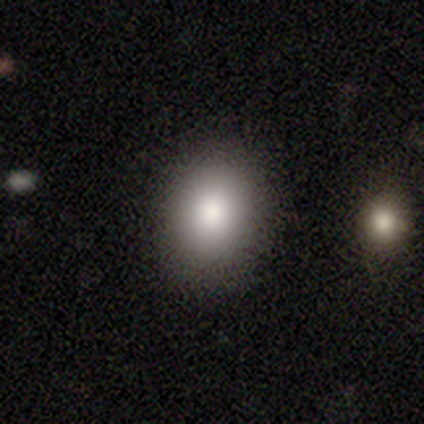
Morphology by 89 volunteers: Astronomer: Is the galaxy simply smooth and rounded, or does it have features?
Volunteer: smooth — 82%.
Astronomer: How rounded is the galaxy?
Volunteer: in between — 51% (runner-up: round, 48%).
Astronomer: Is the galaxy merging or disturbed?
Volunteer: none — 89%.